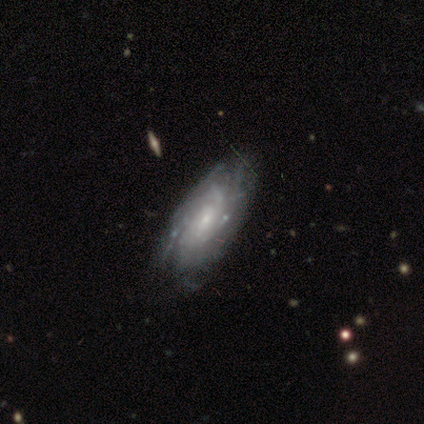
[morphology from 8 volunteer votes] A featured or disk galaxy (100%) with a weak bar (50%, tied with no), tight (50%, tied with medium) spiral arms (100%) and a small central bulge (83%).

Vote fractions:
- Smooth or featured? featured or disk: 100% / smooth: 0% / star or artifact: 0%
- Edge-on disk? no: 75% / yes: 25%
- Bar? weak: 50% (tied) / no: 50% (tied) / strong: 0%
- Spiral arms? yes: 100% / no: 0%
- Spiral winding? tight: 50% (tied) / medium: 50% (tied) / loose: 0%
- Spiral arm count? can't tell: 50% / more than 4: 33% / 4: 17% / 1: 0% / 2: 0% / 3: 0%
- Bulge size? small: 83% / moderate: 17% / dominant: 0% / large: 0% / none: 0%
- Merging? none: 75% / minor disturbance: 25% / major disturbance: 0% / merger: 0%